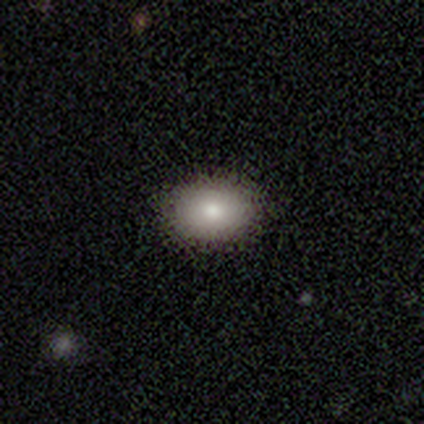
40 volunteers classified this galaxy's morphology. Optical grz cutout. It shows a smooth galaxy with no disk features (88%) that is in between round and cigar-shaped (80%). Merging: none (95%).